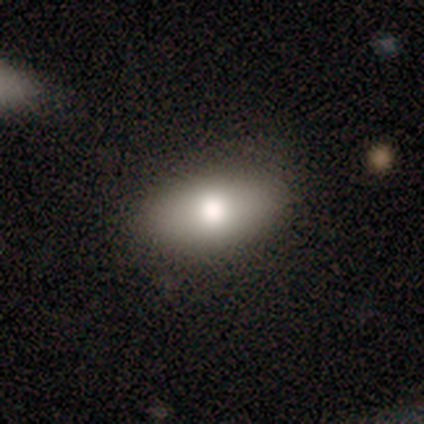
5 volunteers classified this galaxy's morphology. A smooth galaxy with no disk features (80%) that is in between round and cigar-shaped (100%). Merging: none (100%).